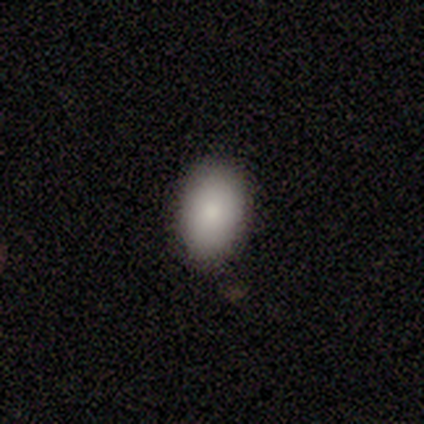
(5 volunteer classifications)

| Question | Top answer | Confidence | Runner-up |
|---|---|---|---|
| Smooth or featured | smooth | 60% | featured or disk (40%) |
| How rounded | in between | 100% | — |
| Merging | none | 100% | — |